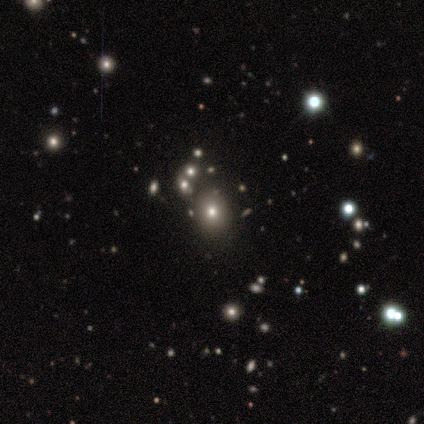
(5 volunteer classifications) Morphology: type=star or artifact (60%).